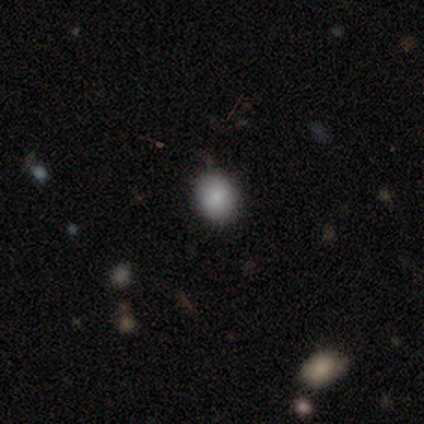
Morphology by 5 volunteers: A smooth galaxy with no disk features (100%) that is round (80%).

Vote fractions:
- Smooth or featured? smooth: 100% / featured or disk: 0% / star or artifact: 0%
- How rounded? round: 80% / in between: 20% / cigar-shaped: 0%
- Merging? none: 100% / minor disturbance: 0% / major disturbance: 0% / merger: 0%